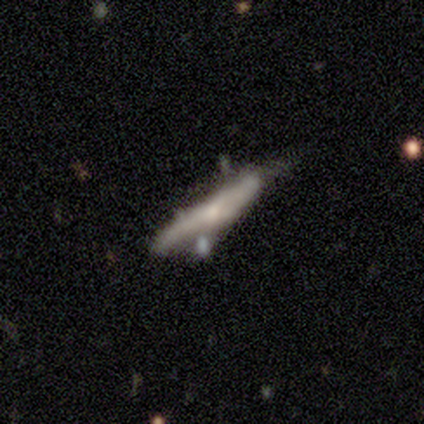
Morphology: type=smooth (50%, tied with featured or disk); roundness=cigar-shaped (100%); merging=major disturbance (50%).